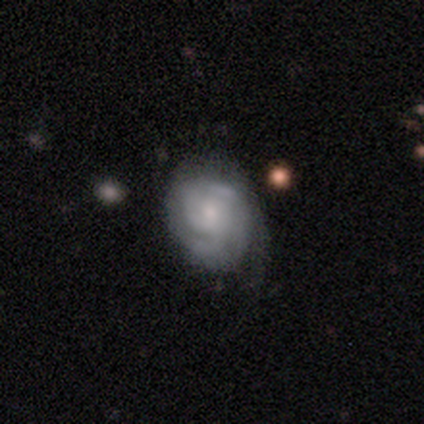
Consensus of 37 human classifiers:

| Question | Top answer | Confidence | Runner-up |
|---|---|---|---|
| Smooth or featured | featured or disk | 76% | smooth (19%) |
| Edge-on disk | no | 100% | — |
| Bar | no | 86% | weak (14%) |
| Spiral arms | yes | 89% | no (11%) |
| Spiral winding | medium | 48% | tight (32%) |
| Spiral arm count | can't tell | 44% | 3 (28%) |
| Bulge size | small | 64% | moderate (29%) |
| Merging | minor disturbance | 31% | none (23%) |